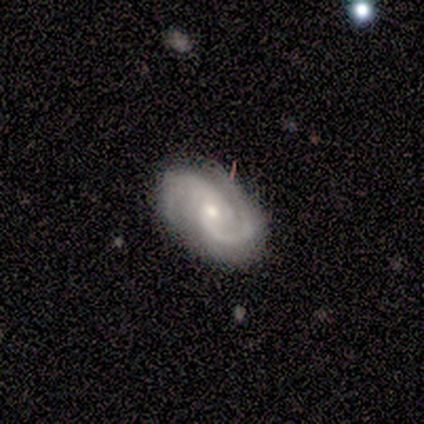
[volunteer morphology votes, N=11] This is clearly a featured or disk galaxy (91%). It is clearly not viewed edge-on (100%). Bar: likely weak (70%). Spiral arm pattern: clearly yes (100%). Spiral arm count: clearly 2 (100%). Spiral winding: clearly medium (80%). Central bulge: likely small (60%). Merging: clearly none (100%).